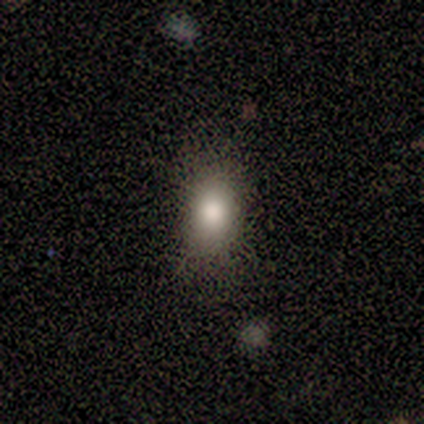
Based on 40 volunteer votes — smooth 75%, featured or disk 20%, star or artifact 5%. Down the decision tree: how rounded — in between (73%); merging — none (84%).